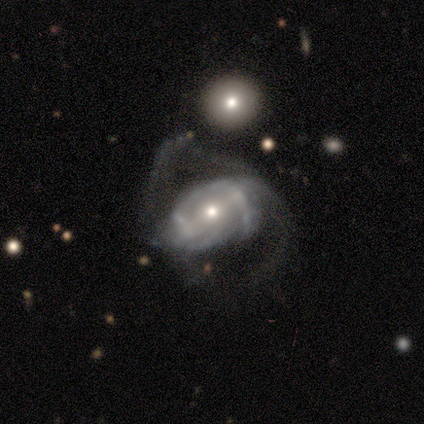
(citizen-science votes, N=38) This appears to be a featured or disk galaxy (79%) with no bar (48%), 2 (38%) tight (42%) spiral arms (83%) and a small central bulge (48%). Merging: major disturbance (56%).